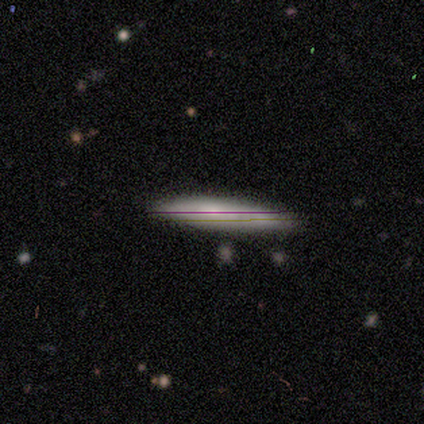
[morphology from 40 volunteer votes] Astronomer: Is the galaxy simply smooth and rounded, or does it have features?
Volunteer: smooth — 57% (runner-up: featured or disk, 32%).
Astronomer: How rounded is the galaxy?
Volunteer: cigar-shaped — 91%.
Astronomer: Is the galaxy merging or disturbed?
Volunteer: none — 81%.